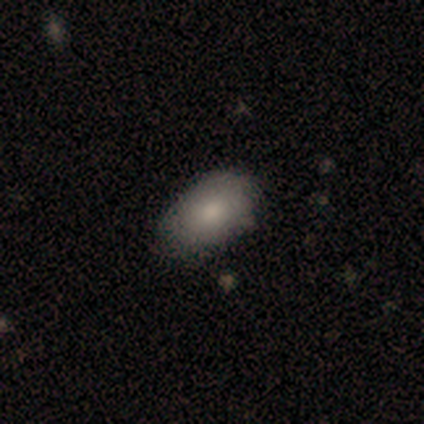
smooth-or-featured: smooth: 79% | featured or disk: 21% | star or artifact: 0%
  how-rounded: in between: 91% | round: 9% | cigar-shaped: 0%
  merging: none: 79% | minor disturbance: 14% | major disturbance: 7% | merger: 0%